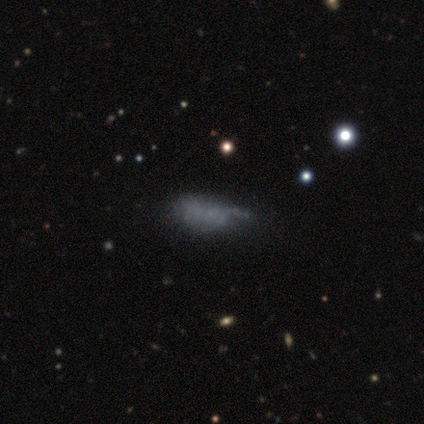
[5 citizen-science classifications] Morphology: type=smooth (60%); roundness=in between (100%); merging=none (60%).